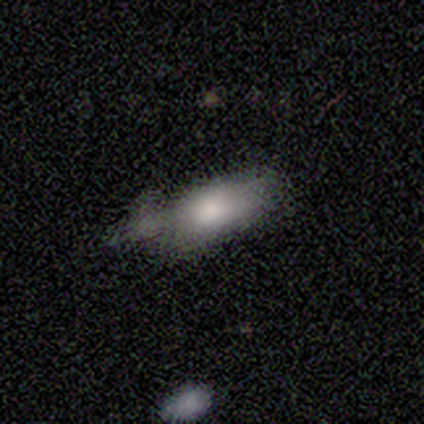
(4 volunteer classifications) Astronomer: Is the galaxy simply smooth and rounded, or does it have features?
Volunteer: smooth — 75%.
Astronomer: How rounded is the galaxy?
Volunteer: in between — 100%.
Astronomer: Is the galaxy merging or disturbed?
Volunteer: none — 33%, tied with minor disturbance and merger at 33%.